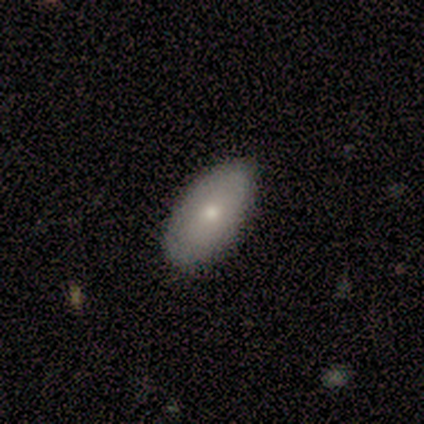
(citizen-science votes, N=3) Overall: smooth (100%). How rounded: in between (67%; cigar-shaped 33%). Merging: none (100%).